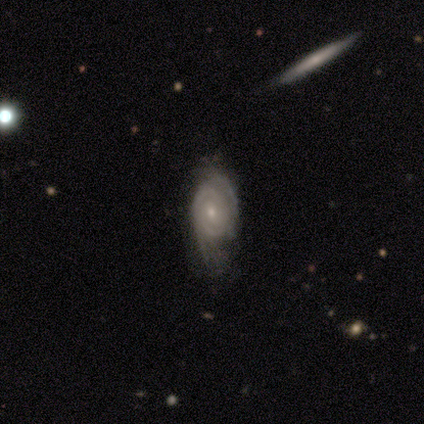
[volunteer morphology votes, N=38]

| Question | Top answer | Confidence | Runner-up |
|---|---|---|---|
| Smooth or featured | featured or disk | 92% | smooth (8%) |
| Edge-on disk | no | 97% | yes (3%) |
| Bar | no | 65% | weak (32%) |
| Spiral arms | yes | 94% | no (6%) |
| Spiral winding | tight | 81% | medium (19%) |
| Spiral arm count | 2 | 56% | can't tell (28%) |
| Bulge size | small | 76% | moderate (24%) |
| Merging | none | 37% | minor disturbance (26%) |